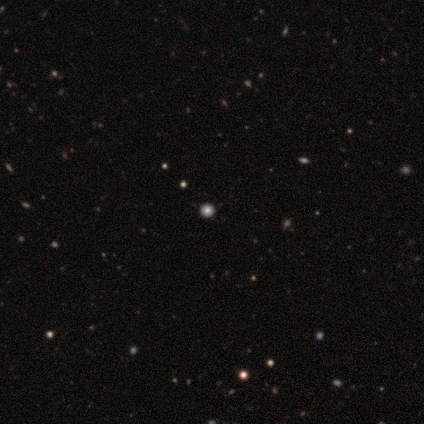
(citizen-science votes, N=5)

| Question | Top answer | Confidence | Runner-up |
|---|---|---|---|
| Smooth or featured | star or artifact | 60% | smooth (40%) |